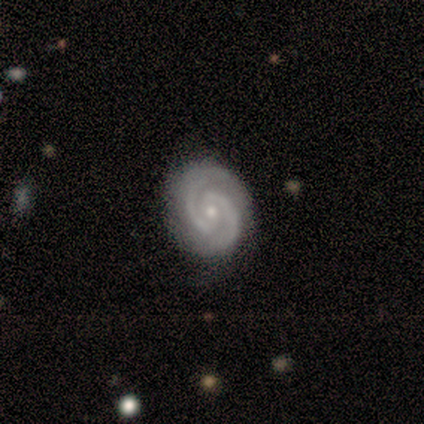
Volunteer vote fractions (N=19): A featured or disk galaxy (95%) with no bar (67%), 2 (100%) tight (78%) spiral arms (100%) and a small central bulge (72%).

Vote fractions:
- Smooth or featured? featured or disk: 95% / star or artifact: 5% / smooth: 0%
- Edge-on disk? no: 100% / yes: 0%
- Bar? no: 67% / weak: 22% / strong: 11%
- Spiral arms? yes: 100% / no: 0%
- Spiral winding? tight: 78% / medium: 17% / loose: 6%
- Spiral arm count? 2: 100% / 1: 0% / 3: 0% / 4: 0% / more than 4: 0% / can't tell: 0%
- Bulge size? small: 72% / moderate: 28% / dominant: 0% / large: 0% / none: 0%
- Merging? none: 89% / minor disturbance: 11% / major disturbance: 0% / merger: 0%